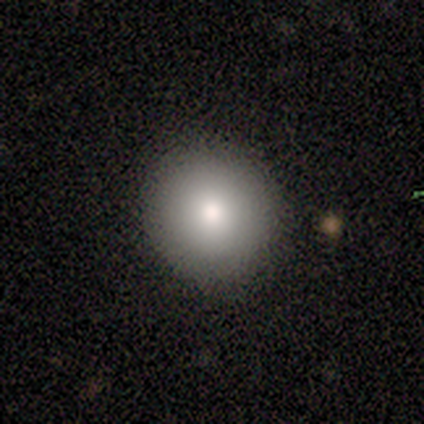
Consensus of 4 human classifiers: Morphology: type=smooth (100%); roundness=round (100%); merging=none (100%).